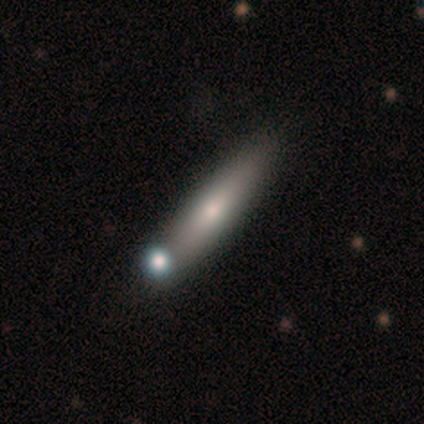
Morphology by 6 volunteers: Overall: smooth (67%; featured or disk 33%). How rounded: cigar-shaped (75%). Merging: none (67%).